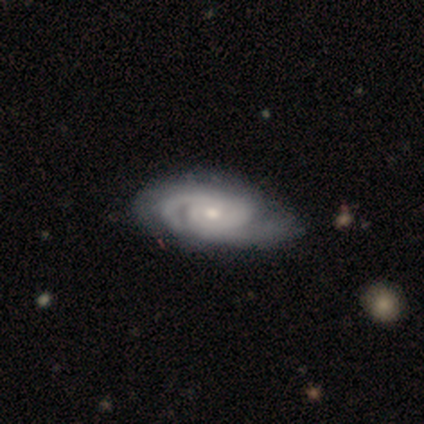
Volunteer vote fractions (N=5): Q: Smooth or featured?
A: featured or disk (100%)
Q: Edge-on disk?
A: no (100%)
Q: Bar?
A: no (100%)
Q: Spiral arms?
A: yes (100%)
Q: Spiral winding?
A: tight (60%); runner-up: medium (40%)
Q: Spiral arm count?
A: can't tell (60%); runner-up: 2 (40%)
Q: Bulge size?
A: moderate (80%); runner-up: small (20%)
Q: Merging?
A: none (100%)